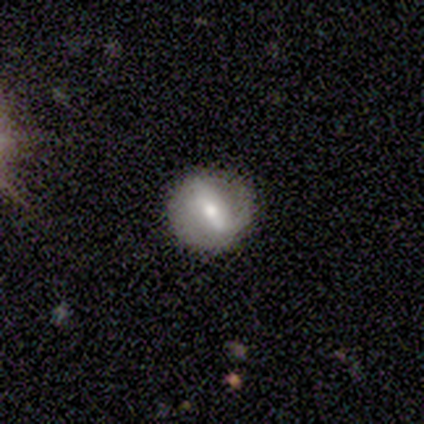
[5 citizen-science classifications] Smooth or featured? 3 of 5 (60%) said smooth. How rounded? 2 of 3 (67%) said round. Merging? 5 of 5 (100%) said none.